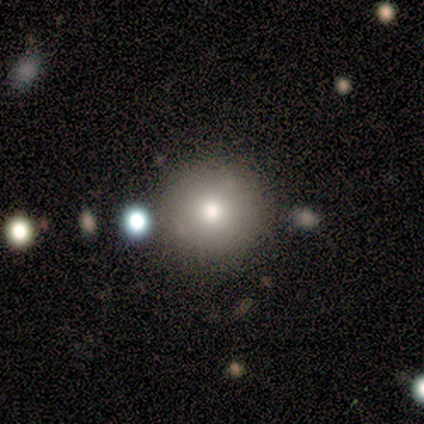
Volunteers were most divided on "merging": none: 88%, merger: 12%, minor disturbance: 0%, major disturbance: 0%. More confident: smooth or featured — smooth (100%); how rounded — round (100%).